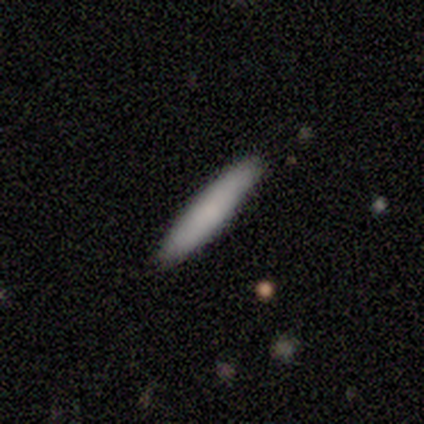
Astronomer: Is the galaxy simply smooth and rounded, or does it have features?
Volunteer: smooth — 60% (runner-up: featured or disk, 40%).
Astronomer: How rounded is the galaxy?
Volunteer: cigar-shaped — 100%.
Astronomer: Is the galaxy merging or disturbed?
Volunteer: none — 80%.